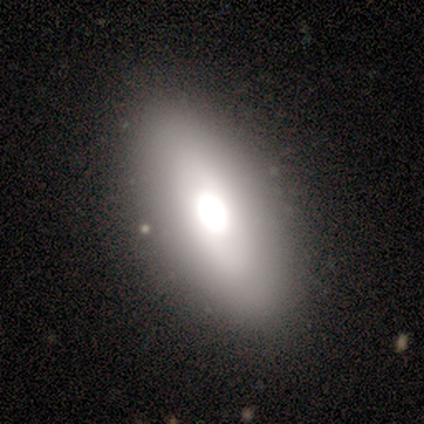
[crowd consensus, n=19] smooth_or_featured: smooth (p=0.53) [alt: featured or disk p=0.37]
how_rounded: in between (p=0.80) [alt: round p=0.10]
merging: none (p=0.82) [alt: merger p=0.12]